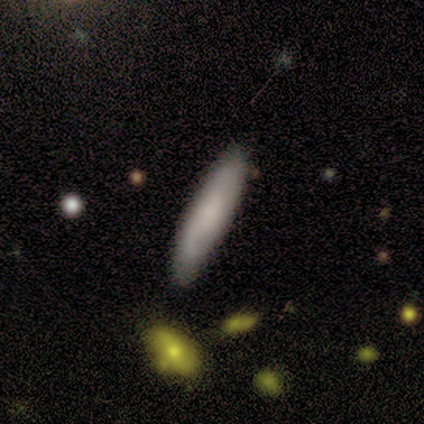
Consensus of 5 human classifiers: Smooth or featured? smooth (80%)
How rounded? cigar-shaped (75%)
Merging? none (60%)